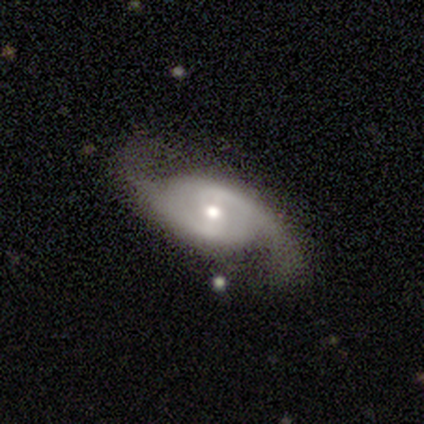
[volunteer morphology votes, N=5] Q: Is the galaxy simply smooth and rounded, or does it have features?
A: featured or disk — 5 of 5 (100%).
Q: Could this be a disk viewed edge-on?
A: no — 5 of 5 (100%).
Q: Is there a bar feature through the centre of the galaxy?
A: weak — 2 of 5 (40%, tied with no).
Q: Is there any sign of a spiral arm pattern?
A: yes — 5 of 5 (100%).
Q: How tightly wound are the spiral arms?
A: tight — 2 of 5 (40%, tied with loose).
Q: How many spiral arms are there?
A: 2 — 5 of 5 (100%).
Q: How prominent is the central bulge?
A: small — 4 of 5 (80%).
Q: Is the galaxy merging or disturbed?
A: none — 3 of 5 (60%).